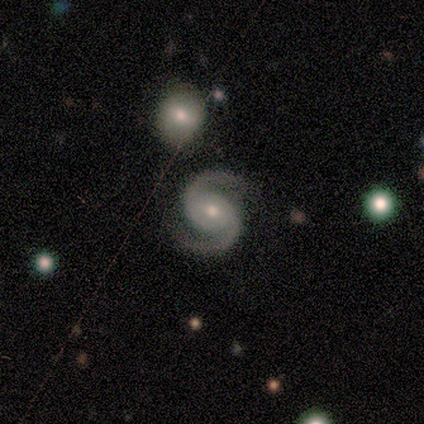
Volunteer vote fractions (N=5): A featured or disk galaxy (100%) with no bar (60%), 2 (100%) medium (60%) spiral arms (100%) and a moderate central bulge (60%). Merging: none (100%).